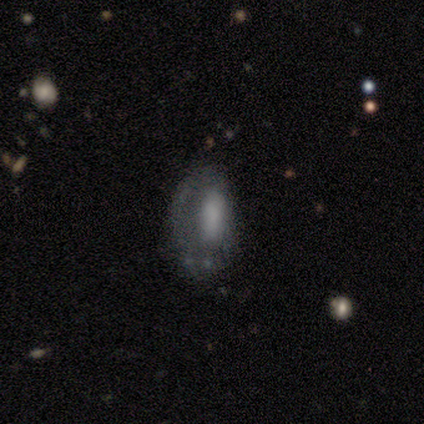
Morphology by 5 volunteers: A smooth galaxy with no disk features (60%) that is in between round and cigar-shaped (100%). Merging: none (50%).